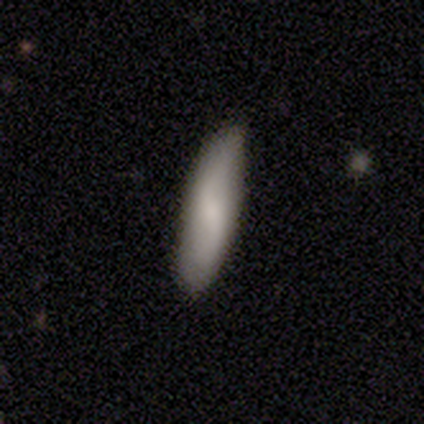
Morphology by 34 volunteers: smooth_or_featured: smooth (p=0.74) [alt: featured or disk p=0.26]
how_rounded: cigar-shaped (p=0.80) [alt: in between p=0.16]
merging: none (p=0.71) [alt: minor disturbance p=0.21]